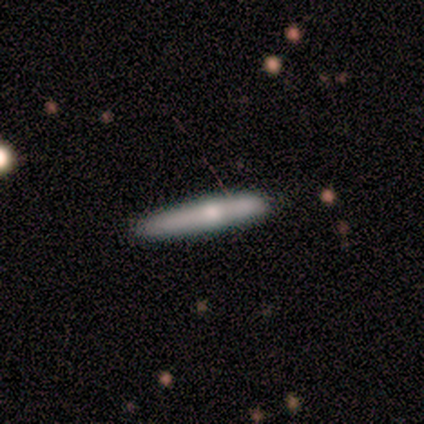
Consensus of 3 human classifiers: Smooth or featured?
  - smooth: 67% *
  - featured or disk: 33%
  - star or artifact: 0%
How rounded?
  - cigar-shaped: 100% *
  - round: 0%
  - in between: 0%
Merging?
  - none: 67% *
  - minor disturbance: 33%
  - major disturbance: 0%
  - merger: 0%